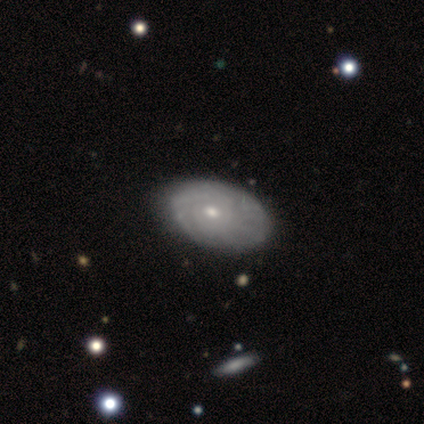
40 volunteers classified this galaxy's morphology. Overall: featured or disk (85%). Edge-on disk: no (97%). Bar: no (85%). Spiral arms: yes (82%). Spiral arm count: can't tell (67%). Spiral winding: tight (70%). Bulge size: small (55%; moderate 39%). Merging: none (55%).